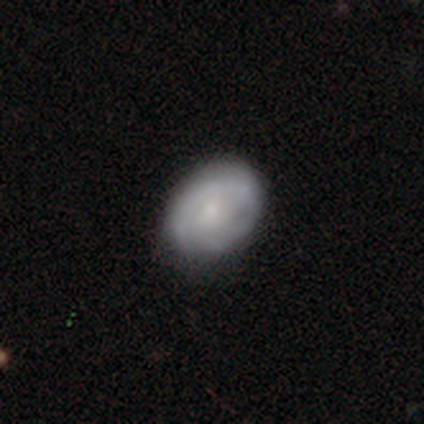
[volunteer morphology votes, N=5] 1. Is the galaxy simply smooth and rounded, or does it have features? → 60% featured or disk, 40% smooth, 0% star or artifact.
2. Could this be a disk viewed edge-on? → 100% no, 0% yes.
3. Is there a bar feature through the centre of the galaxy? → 100% weak, 0% strong, 0% no.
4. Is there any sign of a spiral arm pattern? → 67% yes, 33% no.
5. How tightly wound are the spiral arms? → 100% tight, 0% medium, 0% loose.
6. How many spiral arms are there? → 100% 2, 0% 1, 0% 3, 0% 4, 0% more than 4, 0% can't tell.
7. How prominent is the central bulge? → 67% moderate, 33% small, 0% dominant, 0% large, 0% none.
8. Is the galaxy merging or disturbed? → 60% none, 40% minor disturbance, 0% major disturbance, 0% merger.